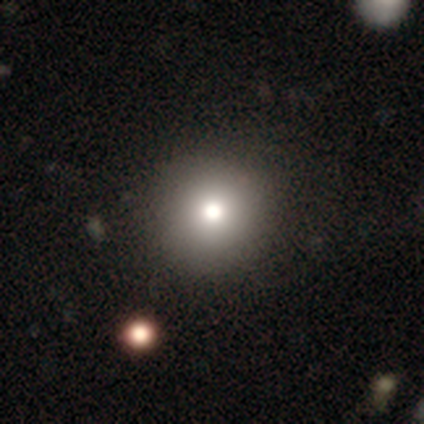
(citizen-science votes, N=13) A smooth galaxy with no disk features (62%) that is round (100%).

Vote fractions:
- Smooth or featured? smooth: 62% / star or artifact: 31% / featured or disk: 8%
- How rounded? round: 100% / in between: 0% / cigar-shaped: 0%
- Merging? none: 89% / minor disturbance: 11% / major disturbance: 0% / merger: 0%